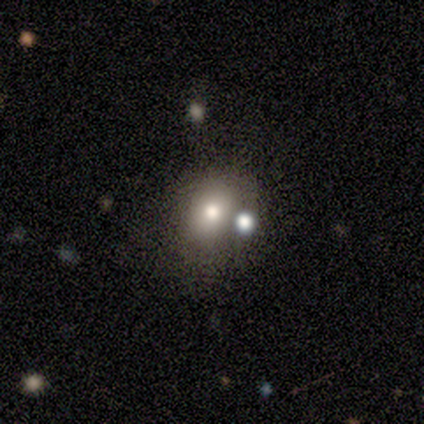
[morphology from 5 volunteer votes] Smooth or featured? 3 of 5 (60%) said smooth. How rounded? 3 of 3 (100%) said in between. Merging? 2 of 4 (50%) said none.